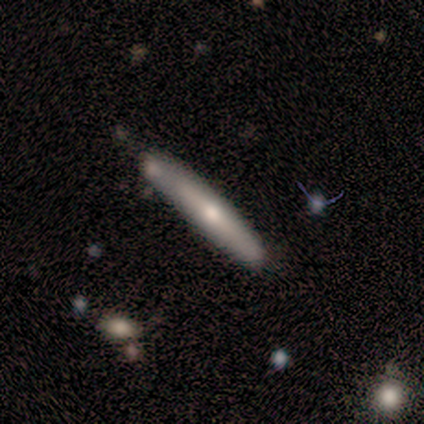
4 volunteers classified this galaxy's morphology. Smooth or featured?
  - featured or disk: 50% *
  - smooth: 25%
  - star or artifact: 25%
Edge-on disk?
  - yes: 50% * (tied)
  - no: 50% * (tied)
Edge-on bulge?
  - rounded: 100% *
  - boxy: 0%
  - none: 0%
Merging?
  - none: 67% *
  - minor disturbance: 33%
  - major disturbance: 0%
  - merger: 0%